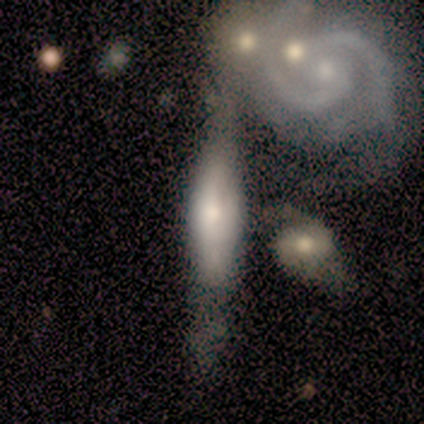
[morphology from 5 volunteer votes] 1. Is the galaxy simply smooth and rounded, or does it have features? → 100% featured or disk, 0% smooth, 0% star or artifact.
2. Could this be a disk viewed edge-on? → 80% yes, 20% no.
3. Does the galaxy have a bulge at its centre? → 100% rounded, 0% boxy, 0% none.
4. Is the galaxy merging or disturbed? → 100% none, 0% minor disturbance, 0% major disturbance, 0% merger.